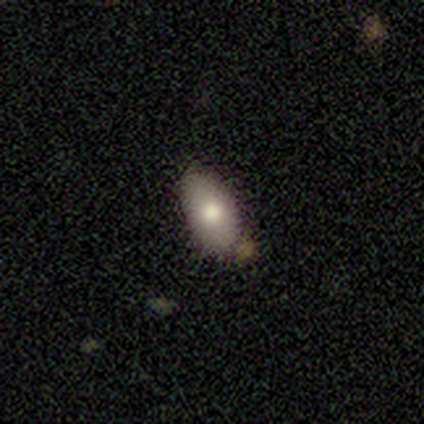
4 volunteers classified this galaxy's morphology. smooth_or_featured: smooth (p=1.00)
how_rounded: in between (p=0.75) [alt: cigar-shaped p=0.25]
merging: none (p=0.50) [alt: minor disturbance p=0.25]